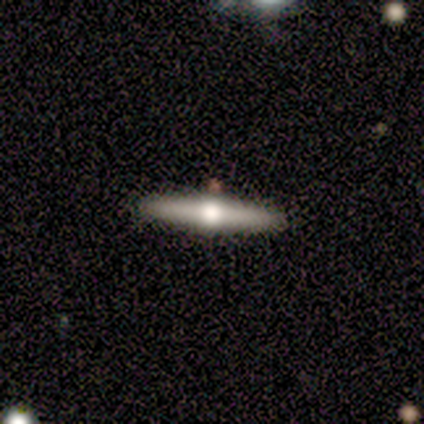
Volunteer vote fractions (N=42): Smooth or featured: featured or disk — 71% (smooth — 24%)
Edge-on disk: yes — 100%
Edge-on bulge: rounded — 93% (boxy — 3%)
Merging: none — 90% (minor disturbance — 8%)